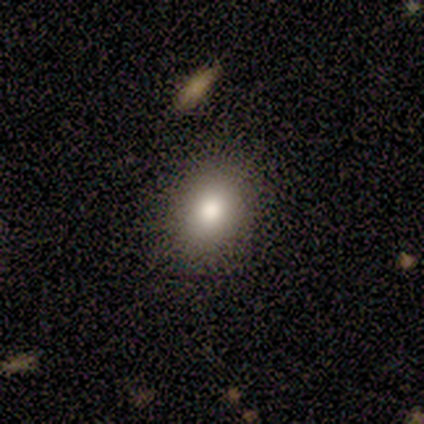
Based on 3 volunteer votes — Smooth or featured? smooth (67%)
How rounded? round (50%, tied with in between)
Merging? none (100%)